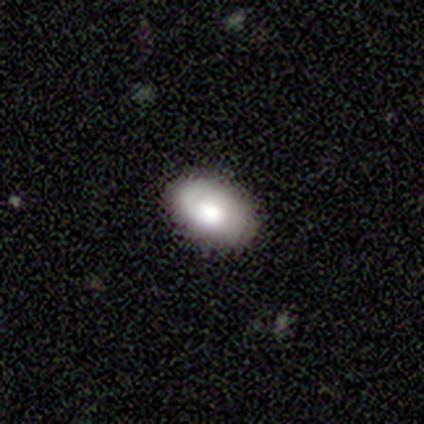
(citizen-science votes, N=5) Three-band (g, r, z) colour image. It shows a smooth galaxy with no disk features (60%) that is in between round and cigar-shaped (100%). Merging: none (80%).